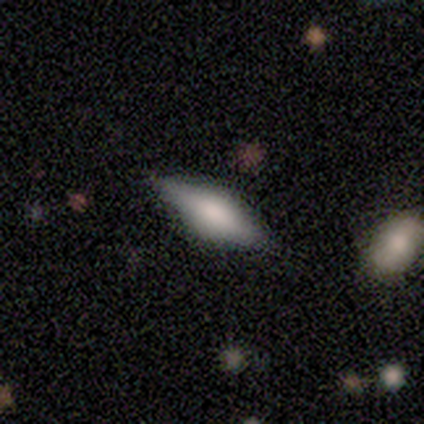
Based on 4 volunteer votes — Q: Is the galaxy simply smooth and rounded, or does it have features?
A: smooth — 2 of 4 (50%, tied with featured or disk).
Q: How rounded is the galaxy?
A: in between — 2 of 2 (100%).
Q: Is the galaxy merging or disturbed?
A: none — 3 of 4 (75%).